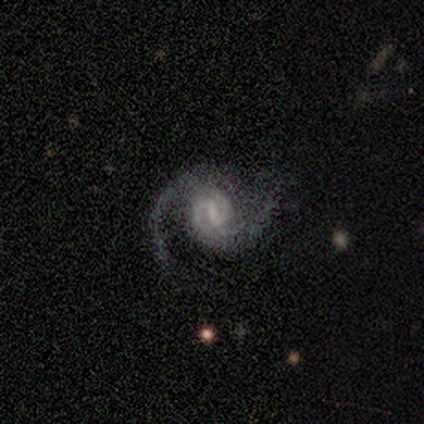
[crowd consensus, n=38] smooth-or-featured: featured or disk: 89% | star or artifact: 11% | smooth: 0%
  disk-edge-on: no: 100% | yes: 0%
    bar: weak: 65% | no: 21% | strong: 15%
    has-spiral-arms: yes: 97% | no: 3%
      spiral-winding: medium: 48% | tight: 33% | loose: 18%
      spiral-arm-count: 2: 91% | 1: 3% | 4: 3% | can't tell: 3% | 3: 0% | more than 4: 0%
    bulge-size: small: 47% | moderate: 38% | none: 9% | large: 6% | dominant: 0%
  merging: none: 71% | minor disturbance: 24% | major disturbance: 6% | merger: 0%